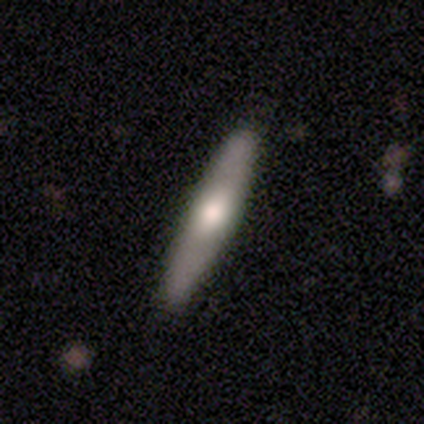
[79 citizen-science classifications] A smooth galaxy with no disk features (58%) that is cigar-shaped (89%). Merging: none (57%).